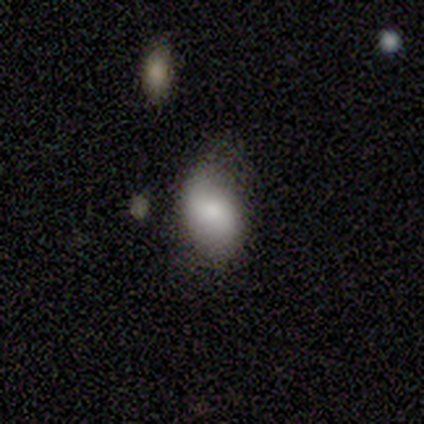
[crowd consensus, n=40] smooth_or_featured: smooth (p=0.68) [alt: featured or disk p=0.23]
how_rounded: in between (p=0.93) [alt: round p=0.07]
merging: none (p=0.64) [alt: minor disturbance p=0.25]